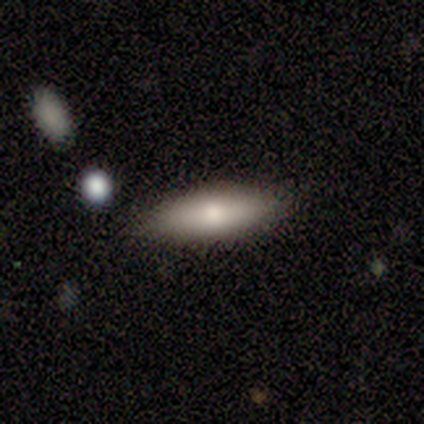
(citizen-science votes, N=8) This is likely a smooth galaxy (75%). How rounded: likely cigar-shaped (67%). Merging: clearly none (88%).